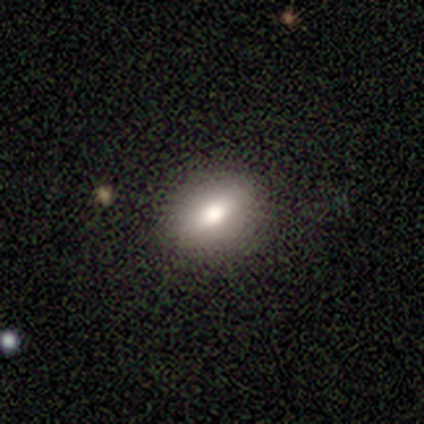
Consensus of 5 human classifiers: Overall: smooth (60%; featured or disk 20%). How rounded: in between (100%). Merging: none (100%).